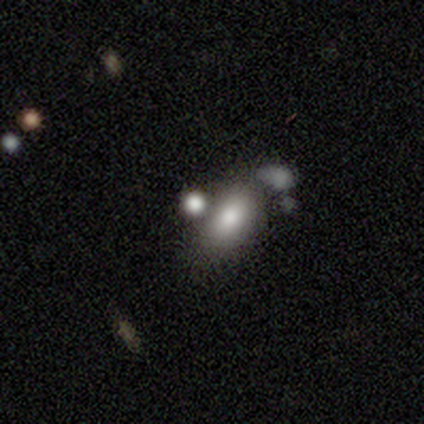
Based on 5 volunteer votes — Smooth or featured: smooth — 80% (featured or disk — 20%)
How rounded: in between — 100%
Merging: merger — 80% (none — 20%)